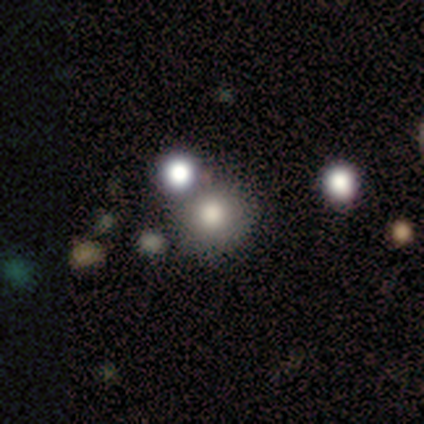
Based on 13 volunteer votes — Q: Smooth or featured?
A: smooth (85%); runner-up: star or artifact (15%)
Q: How rounded?
A: round (100%)
Q: Merging?
A: none (82%); runner-up: merger (18%)